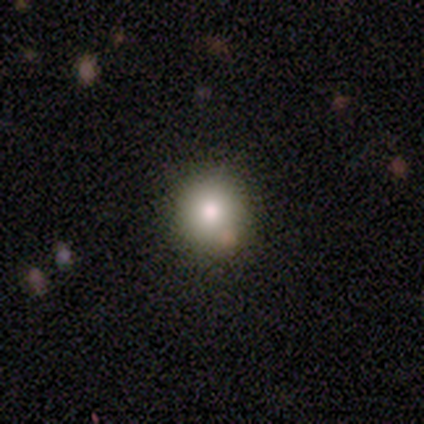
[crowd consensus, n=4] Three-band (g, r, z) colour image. It shows a smooth galaxy with no disk features (75%) that is round (100%). Merging: none (75%).